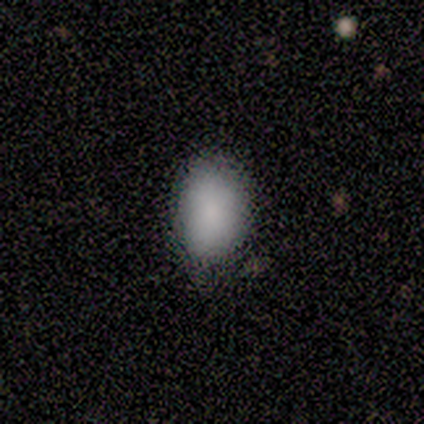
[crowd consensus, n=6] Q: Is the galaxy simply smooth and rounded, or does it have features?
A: smooth — 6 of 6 (100%).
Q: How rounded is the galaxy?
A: in between — 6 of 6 (100%).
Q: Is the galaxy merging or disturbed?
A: none — 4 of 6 (67%).